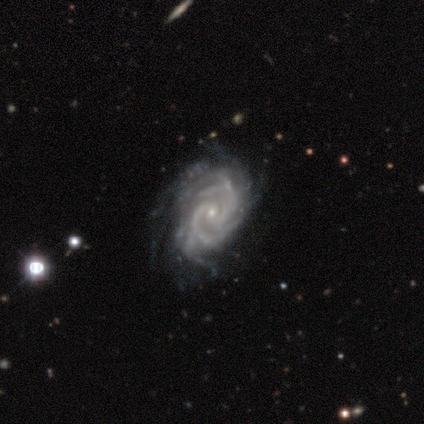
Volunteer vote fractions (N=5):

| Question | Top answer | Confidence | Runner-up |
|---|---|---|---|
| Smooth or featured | featured or disk | 100% | — |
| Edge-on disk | no | 100% | — |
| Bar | weak | 80% | no (20%) |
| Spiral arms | yes | 100% | — |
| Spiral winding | tight | 80% | medium (20%) |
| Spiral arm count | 2 | 40% | 3 (20%) |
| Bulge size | small | 100% | — |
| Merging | minor disturbance | 60% | none (20%) |